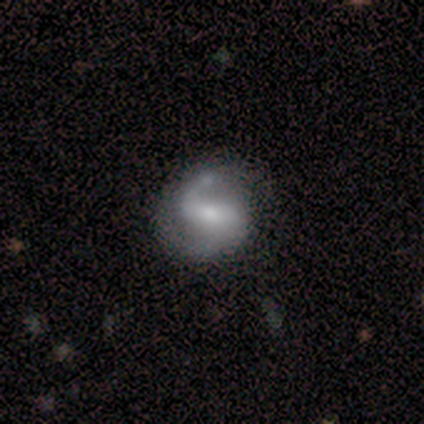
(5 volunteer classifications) Morphology: type=featured or disk (100%); edge-on=no (100%); bar=strong (60%); spiral arms=yes (100%); winding=loose (60%); arm count=2 (60%); bulge=moderate (60%); merging=none (60%).